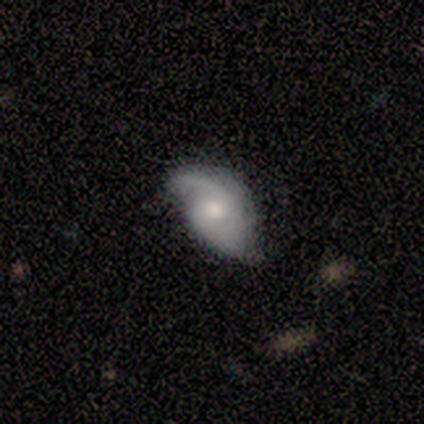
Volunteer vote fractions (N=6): Smooth or featured? featured or disk (83%)
Edge-on disk? no (100%)
Bar? no (60%)
Spiral arms? yes (100%)
Spiral winding? medium (60%)
Spiral arm count? 2 (100%)
Bulge size? moderate (60%)
Merging? none (83%)